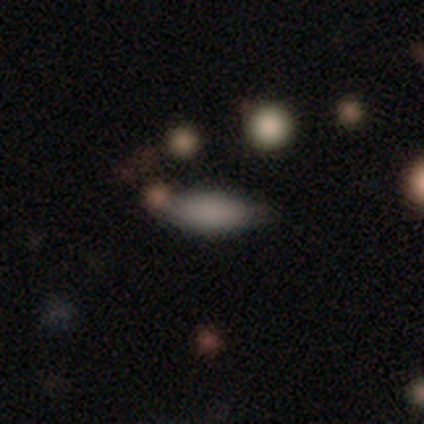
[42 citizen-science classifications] smooth 71%, featured or disk 17%, star or artifact 12%. Down the decision tree: how rounded — in between (83%); merging — none (70%).